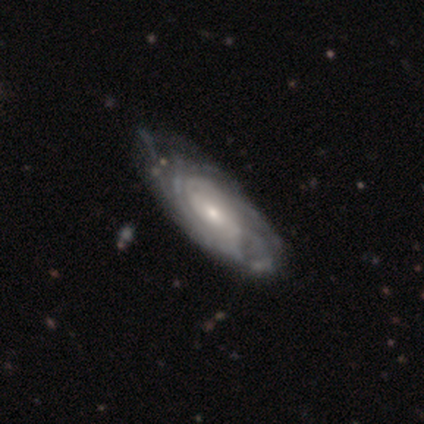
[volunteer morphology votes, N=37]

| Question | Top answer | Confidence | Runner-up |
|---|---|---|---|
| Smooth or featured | featured or disk | 86% | smooth (14%) |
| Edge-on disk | no | 84% | yes (16%) |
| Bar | no | 59% | weak (33%) |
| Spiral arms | yes | 96% | no (4%) |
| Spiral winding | tight | 85% | medium (8%) |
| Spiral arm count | can't tell | 65% | 3 (19%) |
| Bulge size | small | 56% | moderate (30%) |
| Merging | none | 38% | tied: minor disturbance (38%) |